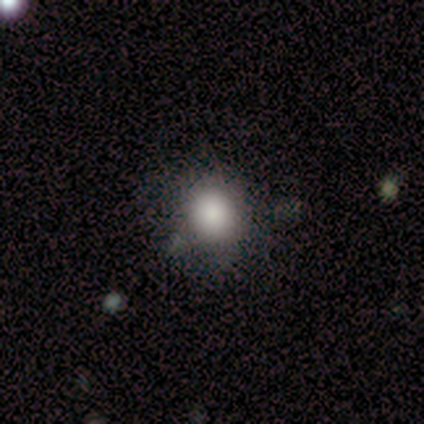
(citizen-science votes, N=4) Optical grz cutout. It shows a smooth galaxy with no disk features (75%) that is round (100%). Merging: none (75%).